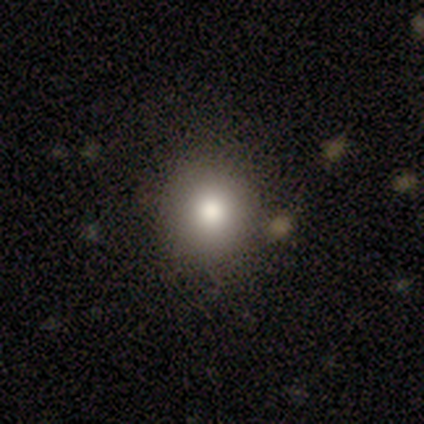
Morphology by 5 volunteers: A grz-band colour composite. It shows a smooth galaxy with no disk features (100%) that is round (100%). Merging: none (100%).